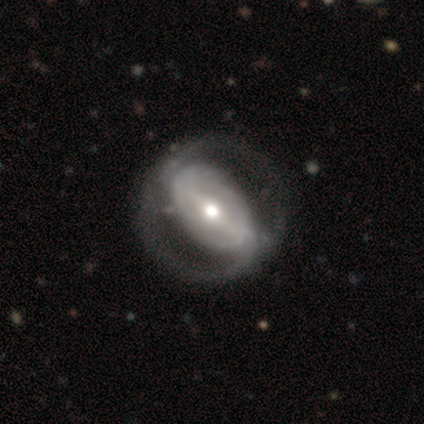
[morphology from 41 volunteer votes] smooth-or-featured: featured or disk: 95% | smooth: 5% | star or artifact: 0%
  disk-edge-on: no: 97% | yes: 3%
    bar: strong: 63% | weak: 24% | no: 13%
    has-spiral-arms: yes: 71% | no: 29%
      spiral-winding: tight: 44% | loose: 30% | medium: 26%
      spiral-arm-count: 2: 81% | can't tell: 19% | 1: 0% | 3: 0% | 4: 0% | more than 4: 0%
    bulge-size: moderate: 63% | large: 18% | small: 16% | dominant: 3% | none: 0%
  merging: none: 61% | major disturbance: 10% | minor disturbance: 0% | merger: 0%